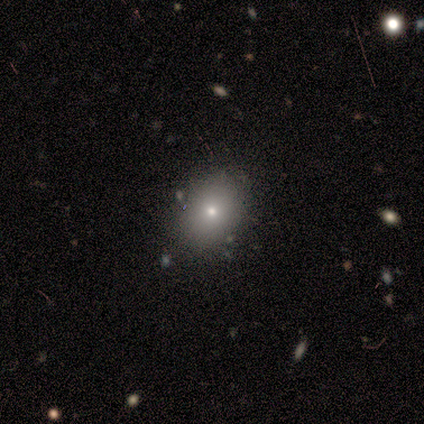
smooth 60%, featured or disk 20%, star or artifact 20%. Down the decision tree: how rounded — in between (67%); merging — none (75%).